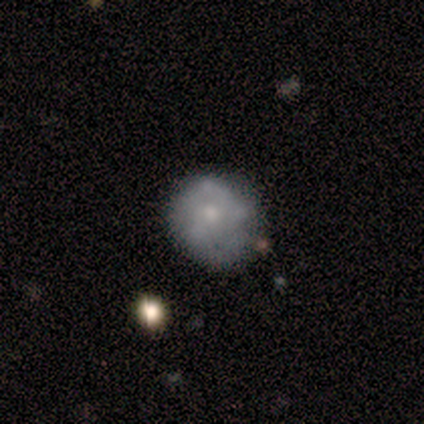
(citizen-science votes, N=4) A smooth galaxy with no disk features (50%, tied with featured or disk) that is round (50%, tied with in between).

Vote fractions:
- Smooth or featured? smooth: 50% (tied) / featured or disk: 50% (tied) / star or artifact: 0%
- How rounded? round: 50% (tied) / in between: 50% (tied) / cigar-shaped: 0%
- Merging? none: 75% / minor disturbance: 25% / major disturbance: 0% / merger: 0%